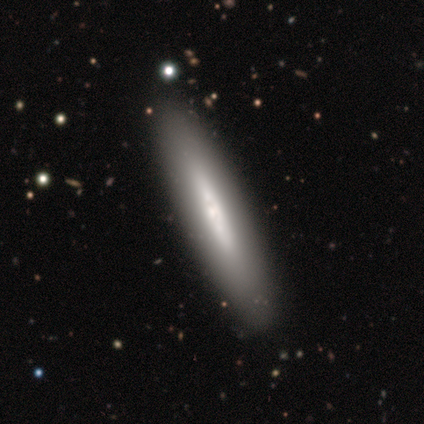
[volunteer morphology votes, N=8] Smooth or featured? featured or disk (88%)
Edge-on disk? yes (100%)
Edge-on bulge? none (43%, tied with rounded)
Merging? none (88%)